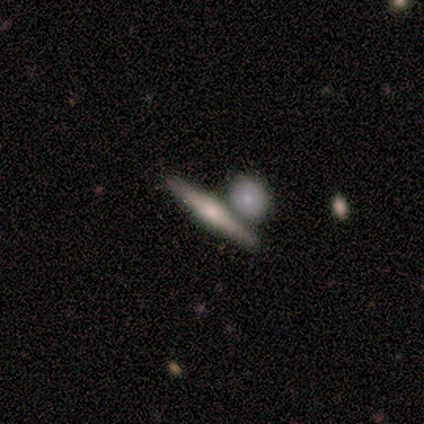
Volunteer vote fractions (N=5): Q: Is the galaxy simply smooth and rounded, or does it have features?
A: featured or disk — 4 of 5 (80%).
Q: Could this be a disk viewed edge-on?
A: yes — 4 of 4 (100%).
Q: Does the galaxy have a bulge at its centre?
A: rounded — 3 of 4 (75%).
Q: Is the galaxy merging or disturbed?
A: none — 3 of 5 (60%).